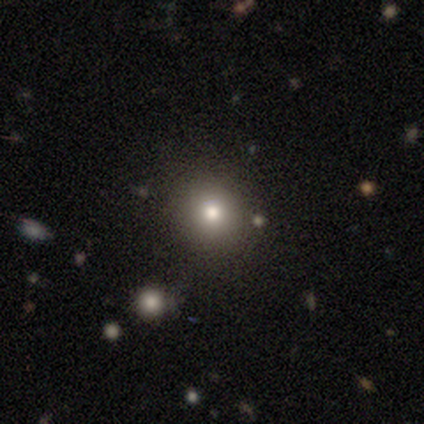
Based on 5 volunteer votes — smooth 80%, featured or disk 20%, star or artifact 0%. Down the decision tree: how rounded — round (75%); merging — none (80%).